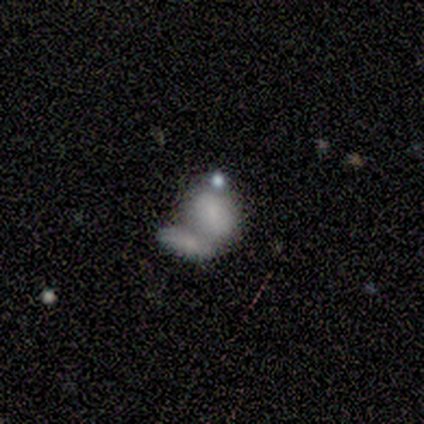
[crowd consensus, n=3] A smooth galaxy with no disk features (33%, tied with featured or disk and star or artifact) that is round (100%).

Vote fractions:
- Smooth or featured? smooth: 33% (tied) / featured or disk: 33% (tied) / star or artifact: 33% (tied)
- How rounded? round: 100% / in between: 0% / cigar-shaped: 0%
- Merging? none: 50% (tied) / merger: 50% (tied) / minor disturbance: 0% / major disturbance: 0%